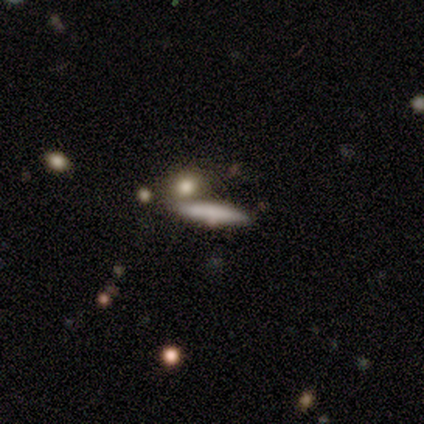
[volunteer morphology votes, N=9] smooth-or-featured: smooth: 56% | featured or disk: 33% | star or artifact: 11%
  how-rounded: cigar-shaped: 80% | in between: 20% | round: 0%
  merging: none: 38% (tied) | merger: 38% (tied) | minor disturbance: 25% | major disturbance: 0%